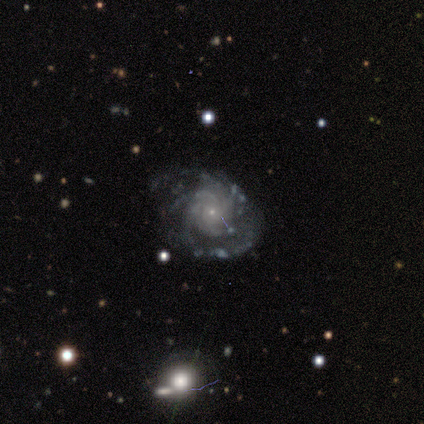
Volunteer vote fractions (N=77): This is clearly a featured or disk galaxy (88%). It is clearly not viewed edge-on (99%). Bar: clearly no (91%). Spiral arm pattern: clearly yes (97%). Spiral arm count: marginally 4 (34%). Spiral winding: likely tight (68%). Central bulge: clearly small (90%). Merging: possibly none (56%).